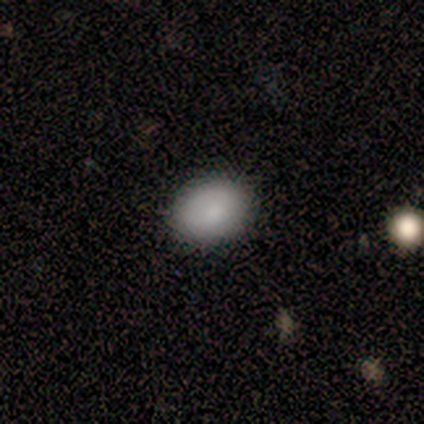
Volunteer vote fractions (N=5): smooth_or_featured: smooth (p=1.00)
how_rounded: in between (p=0.80) [alt: round p=0.20]
merging: none (p=1.00)